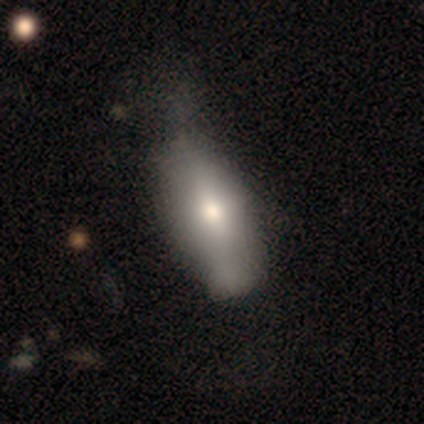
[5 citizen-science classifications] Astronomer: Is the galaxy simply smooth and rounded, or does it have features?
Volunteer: smooth — 80%.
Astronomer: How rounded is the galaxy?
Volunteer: in between — 75%.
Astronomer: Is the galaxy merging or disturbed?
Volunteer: minor disturbance — 60% (runner-up: none, 40%).